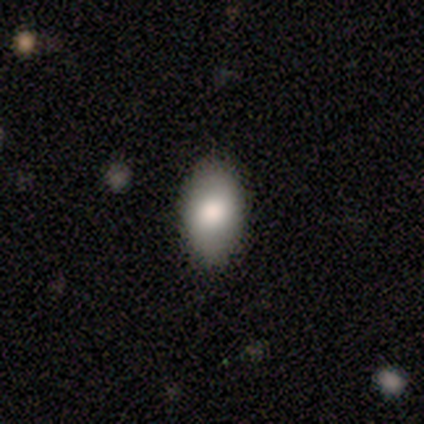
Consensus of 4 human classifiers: Smooth or featured? 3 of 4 (75%) said smooth. How rounded? 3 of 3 (100%) said in between. Merging? 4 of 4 (100%) said none.